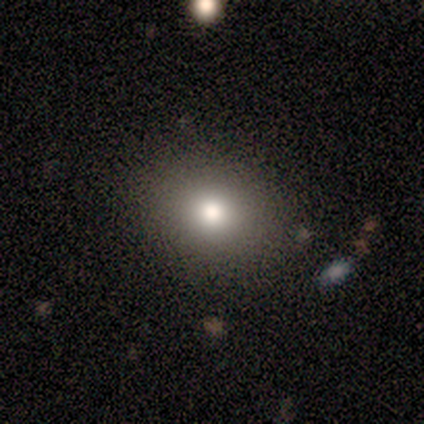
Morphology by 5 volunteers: Smooth or featured? smooth (80%)
How rounded? round (75%)
Merging? none (100%)